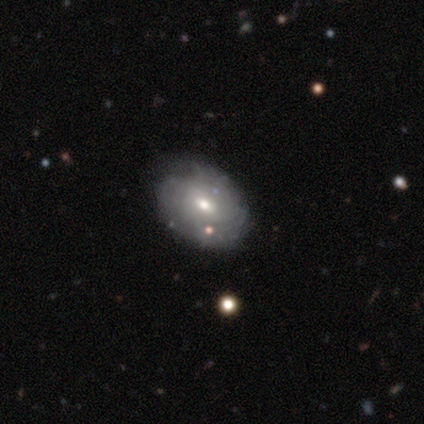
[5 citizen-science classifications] Smooth or featured: featured or disk — 60% (smooth — 40%)
Edge-on disk: no — 100%
Bar: no — 67% (weak — 33%)
Spiral arms: yes — 100%
Spiral winding: tight — 67% (medium — 33%)
Spiral arm count: can't tell — 100%
Bulge size: small — 67% (moderate — 33%)
Merging: none — 100%